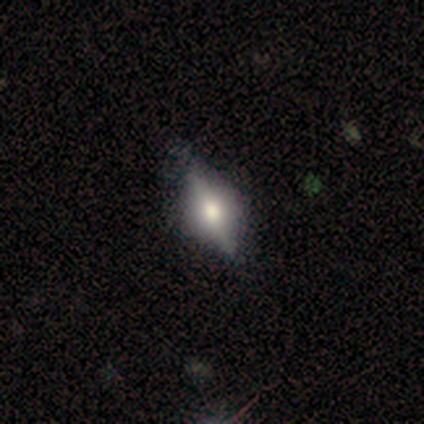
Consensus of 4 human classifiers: Overall: featured or disk (75%). Edge-on disk: yes (67%; no 33%). Edge-on bulge: rounded (100%). Merging: none (100%).